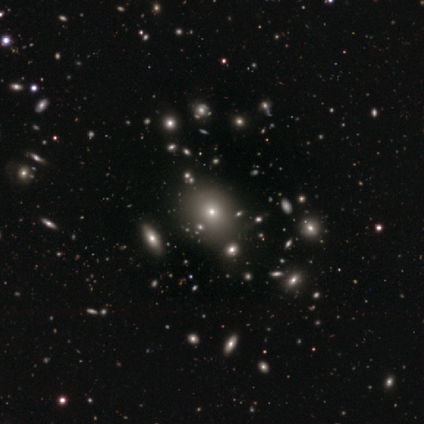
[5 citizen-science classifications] Volunteers were most divided on "merging" (2-way tie): none: 40%, merger: 40%, minor disturbance: 20%, major disturbance: 0%. More confident: how rounded — round (67%); smooth or featured — smooth (60%).